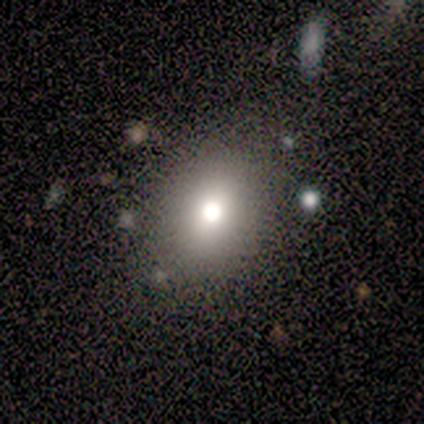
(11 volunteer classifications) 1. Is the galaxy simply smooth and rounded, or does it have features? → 73% smooth, 27% star or artifact, 0% featured or disk.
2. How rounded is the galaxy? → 75% in between, 25% round, 0% cigar-shaped.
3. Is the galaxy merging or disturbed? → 100% none, 0% minor disturbance, 0% major disturbance, 0% merger.